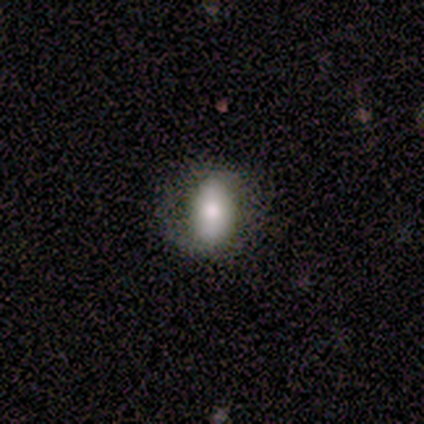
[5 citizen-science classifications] This is marginally a smooth galaxy (40%, tied with featured or disk). How rounded: clearly in between (100%). Merging: likely none (75%).